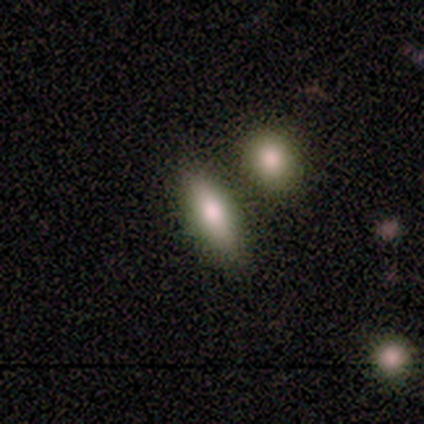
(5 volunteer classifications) smooth_or_featured: smooth (p=0.80) [alt: featured or disk p=0.20]
how_rounded: in between (p=0.50) [tied with: cigar-shaped p=0.50]
merging: none (p=0.80) [alt: minor disturbance p=0.20]